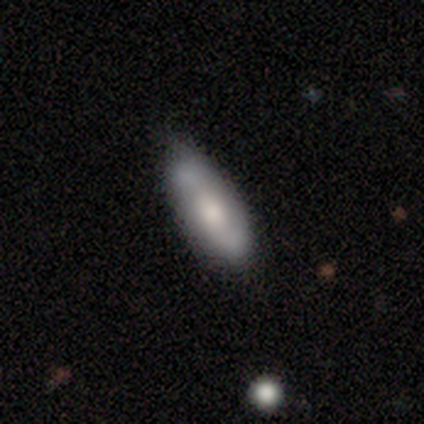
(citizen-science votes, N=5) Smooth or featured? 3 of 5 (60%) said featured or disk. Edge-on disk? 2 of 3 (67%) said no. Bar? 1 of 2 (50%, tied with no) said weak. Spiral arms? 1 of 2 (50%, tied with no) said yes. Spiral winding? 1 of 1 (100%) said medium. Spiral arm count? 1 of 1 (100%) said 1. Bulge size? 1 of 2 (50%, tied with small) said large. Merging? 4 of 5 (80%) said none.